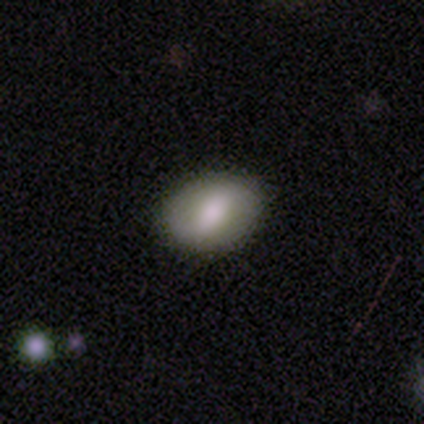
Volunteers were most divided on "smooth or featured": smooth: 60%, featured or disk: 40%, star or artifact: 0%. More confident: how rounded — in between (100%); merging — none (80%).